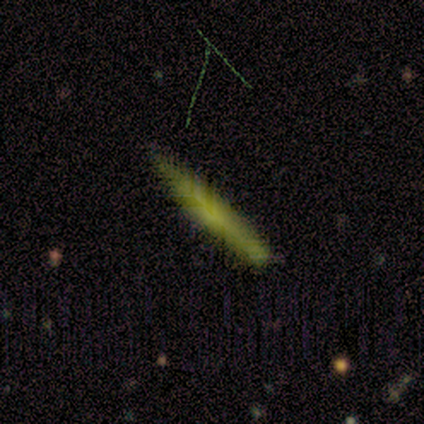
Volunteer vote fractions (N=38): Q: Smooth or featured?
A: smooth (58%); runner-up: star or artifact (24%)
Q: How rounded?
A: cigar-shaped (100%)
Q: Merging?
A: none (72%); runner-up: minor disturbance (28%)